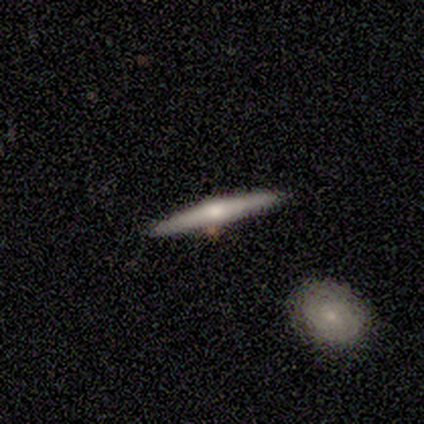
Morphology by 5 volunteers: smooth_or_featured: featured or disk (p=0.80) [alt: smooth p=0.20]
disk_edge_on: yes (p=1.00)
edge_on_bulge: rounded (p=1.00)
merging: none (p=0.60) [alt: major disturbance p=0.20]